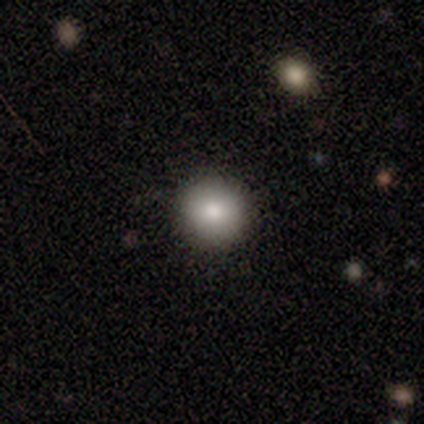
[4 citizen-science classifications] This appears to be a smooth galaxy with no disk features (75%) that is round (100%). Merging: none (100%).